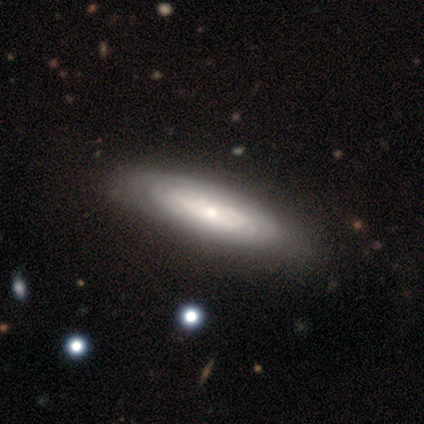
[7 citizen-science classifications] This is likely a featured or disk galaxy (71%). It is likely not viewed edge-on (60%). Bar: clearly no (100%). Spiral arm pattern: clearly yes (100%). Spiral arm count: likely can't tell (67%). Spiral winding: clearly tight (100%). Central bulge: marginally large (33%, tied with moderate and small). Merging: clearly none (86%).